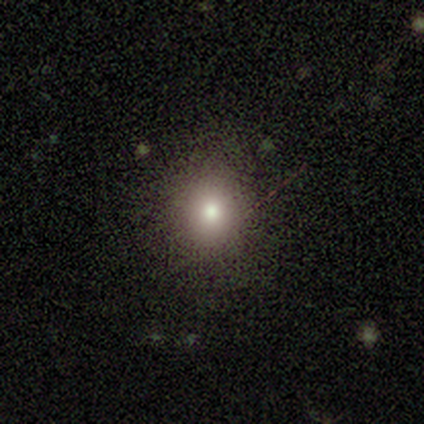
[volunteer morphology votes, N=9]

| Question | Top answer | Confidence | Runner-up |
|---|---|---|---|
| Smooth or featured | smooth | 56% | featured or disk (22%) |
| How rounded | round | 100% | — |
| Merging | none | 86% | major disturbance (14%) |